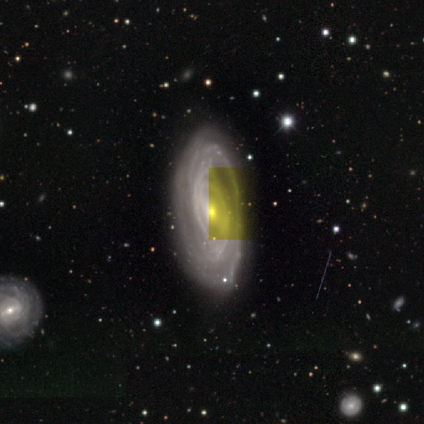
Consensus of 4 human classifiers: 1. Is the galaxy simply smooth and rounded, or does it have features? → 75% featured or disk, 25% star or artifact, 0% smooth.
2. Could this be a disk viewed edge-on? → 67% no, 33% yes.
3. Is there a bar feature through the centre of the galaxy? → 100% strong, 0% weak, 0% no.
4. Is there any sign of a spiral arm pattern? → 100% yes, 0% no.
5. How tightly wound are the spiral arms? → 100% tight, 0% medium, 0% loose.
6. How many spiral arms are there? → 50% 1 (tied), 50% can't tell (tied), 0% 2, 0% 3, 0% 4, 0% more than 4.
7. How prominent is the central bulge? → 100% moderate, 0% dominant, 0% large, 0% small, 0% none.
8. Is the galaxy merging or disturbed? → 100% none, 0% minor disturbance, 0% major disturbance, 0% merger.